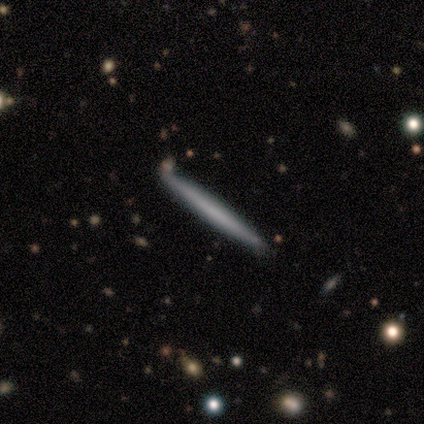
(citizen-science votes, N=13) Smooth or featured?
  - smooth: 62% *
  - featured or disk: 38%
  - star or artifact: 0%
How rounded?
  - cigar-shaped: 88% *
  - round: 12%
  - in between: 0%
Merging?
  - none: 92% *
  - minor disturbance: 8%
  - major disturbance: 0%
  - merger: 0%